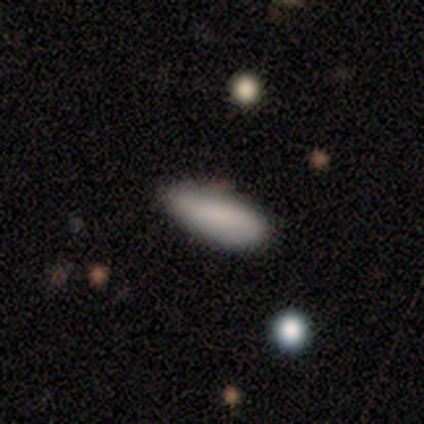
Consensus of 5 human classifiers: Q: Smooth or featured?
A: smooth (100%)
Q: How rounded?
A: in between (60%); runner-up: cigar-shaped (40%)
Q: Merging?
A: none (80%); runner-up: major disturbance (20%)